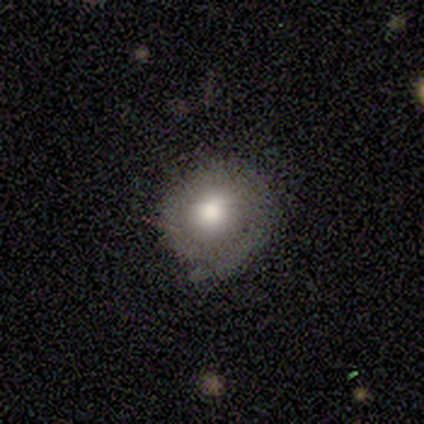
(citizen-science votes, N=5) smooth 60%, featured or disk 40%, star or artifact 0%. Down the decision tree: how rounded — round (100%); merging — none (80%).